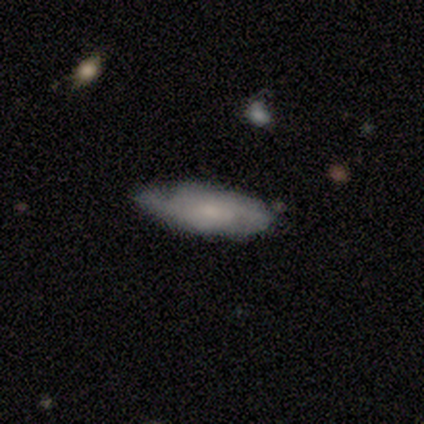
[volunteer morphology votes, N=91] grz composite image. It shows a smooth galaxy with no disk features (48%) that is in between round and cigar-shaped (68%). Merging: none (63%).